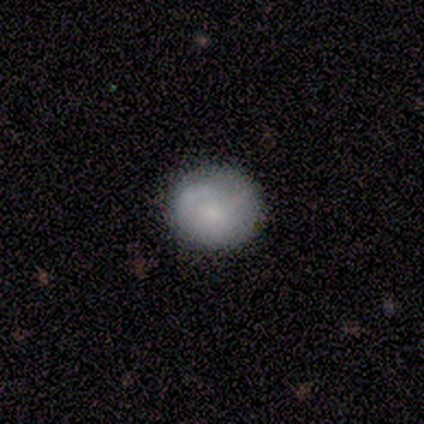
This appears to be a smooth galaxy with no disk features (100%) that is round (80%). Merging: none (80%).